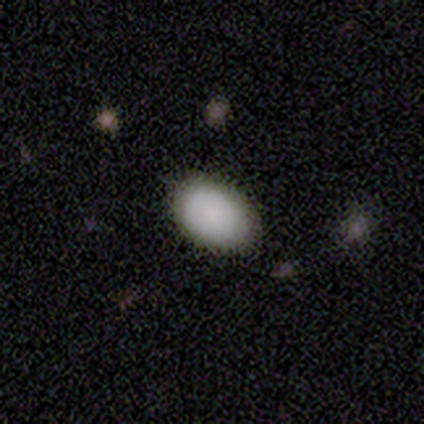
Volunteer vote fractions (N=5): smooth_or_featured: smooth (p=0.80) [alt: star or artifact p=0.20]
how_rounded: in between (p=1.00)
merging: none (p=1.00)